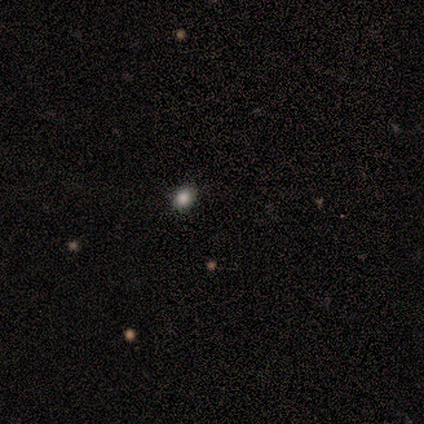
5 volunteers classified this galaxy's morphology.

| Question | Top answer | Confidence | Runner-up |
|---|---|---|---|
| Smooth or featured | smooth | 80% | star or artifact (20%) |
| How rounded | round | 50% | tied: in between (50%) |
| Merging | none | 100% | — |